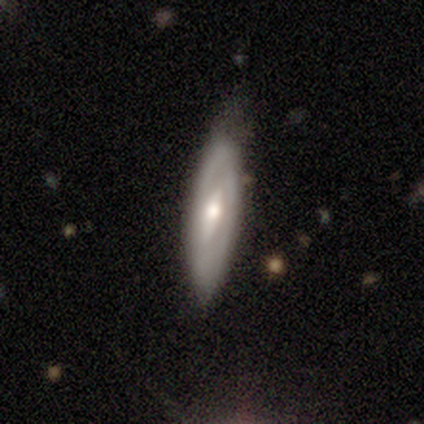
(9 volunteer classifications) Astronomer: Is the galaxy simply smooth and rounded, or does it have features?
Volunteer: featured or disk — 44% (runner-up: smooth, 33%).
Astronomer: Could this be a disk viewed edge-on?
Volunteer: no — 100%.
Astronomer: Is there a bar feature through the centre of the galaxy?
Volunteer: weak — 50%.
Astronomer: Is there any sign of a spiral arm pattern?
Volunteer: yes — 100%.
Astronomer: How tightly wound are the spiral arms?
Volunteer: tight — 50%, tied with loose at 50%.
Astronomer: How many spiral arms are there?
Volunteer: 2 — 75%.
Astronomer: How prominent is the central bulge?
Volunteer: small — 75%.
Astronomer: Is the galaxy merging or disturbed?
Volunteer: none — 86%.